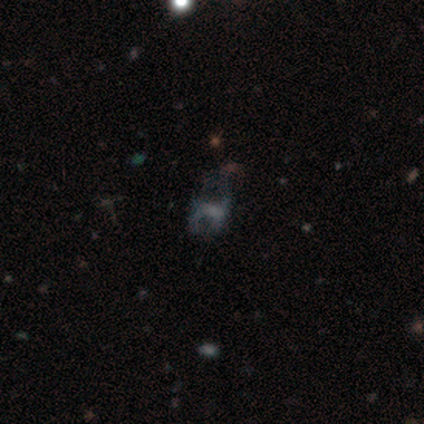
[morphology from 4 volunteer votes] type=featured or disk (75%); edge-on=no (100%); bar=no (67%); spiral arms=no (67%); bulge=large (33%, tied with small and none); merging=major disturbance (67%).